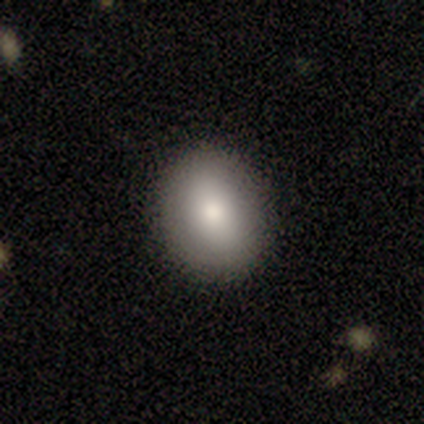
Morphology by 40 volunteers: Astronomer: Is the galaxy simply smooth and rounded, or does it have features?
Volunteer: smooth — 90%.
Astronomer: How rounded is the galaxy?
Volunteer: round — 53% (runner-up: in between, 47%).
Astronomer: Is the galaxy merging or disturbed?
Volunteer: none — 90%.